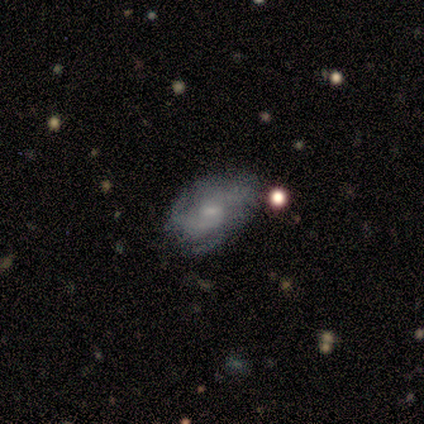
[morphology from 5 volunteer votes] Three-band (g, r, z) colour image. It shows a featured or disk galaxy (100%) with a weak bar (60%), 2 (50%) tight (50%) spiral arms (80%) and a small central bulge (60%). Merging: none (80%).